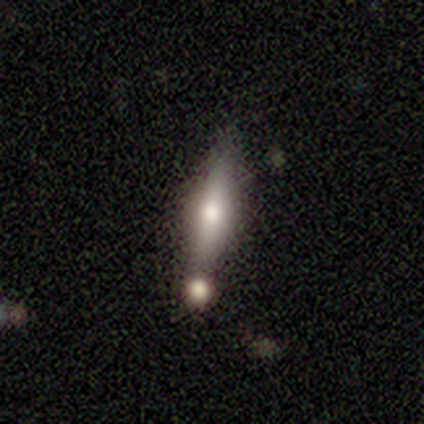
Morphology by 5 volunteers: type=featured or disk (100%); edge-on=no (60%); bar=no (67%); spiral arms=no (100%); bulge=moderate (100%); merging=none (40%, tied with minor disturbance).